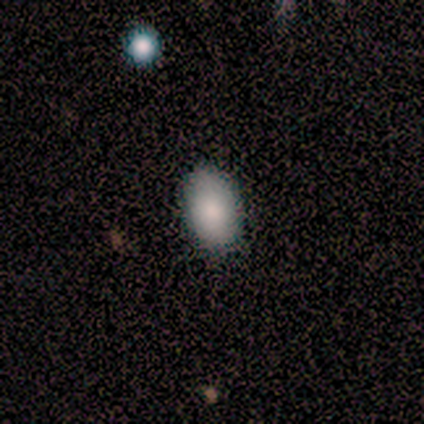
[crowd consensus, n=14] smooth_or_featured: smooth (p=0.93) [alt: star or artifact p=0.07]
how_rounded: in between (p=0.69) [alt: round p=0.23]
merging: none (p=0.85) [alt: minor disturbance p=0.08]